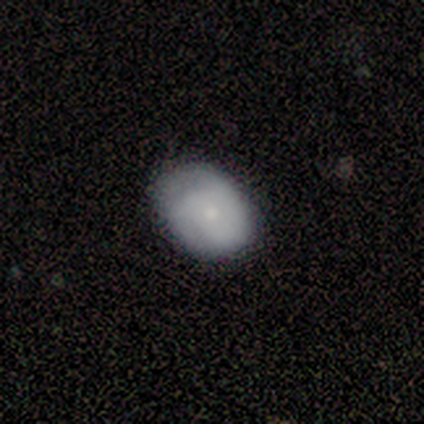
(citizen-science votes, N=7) Smooth or featured? 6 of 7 (86%) said smooth. How rounded? 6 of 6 (100%) said in between. Merging? 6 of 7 (86%) said none.